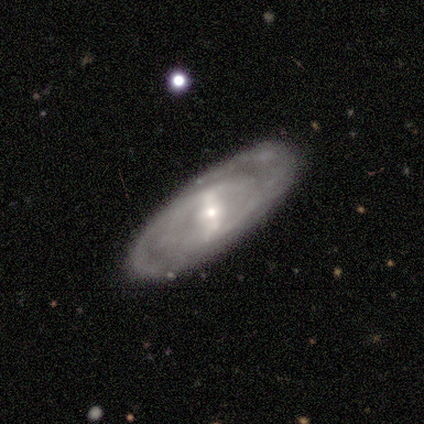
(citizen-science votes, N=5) Smooth or featured? featured or disk (60%)
Edge-on disk? no (100%)
Bar? weak (100%)
Spiral arms? no (67%)
Bulge size? small (100%)
Merging? none (80%)